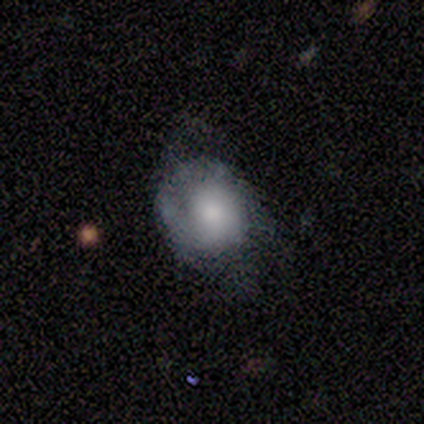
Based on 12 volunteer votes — Smooth or featured? 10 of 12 (83%) said smooth. How rounded? 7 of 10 (70%) said round. Merging? 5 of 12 (42%, tied with minor disturbance) said none.